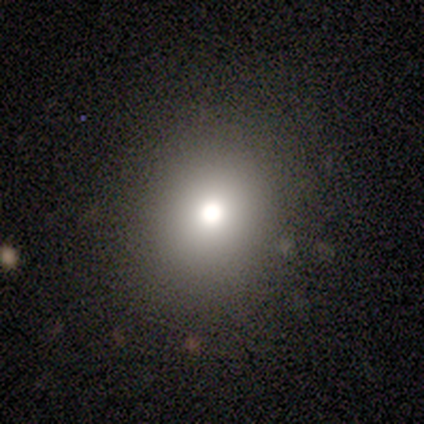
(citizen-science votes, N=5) Overall: smooth (80%). How rounded: round (100%). Merging: none (60%; minor disturbance 20%).